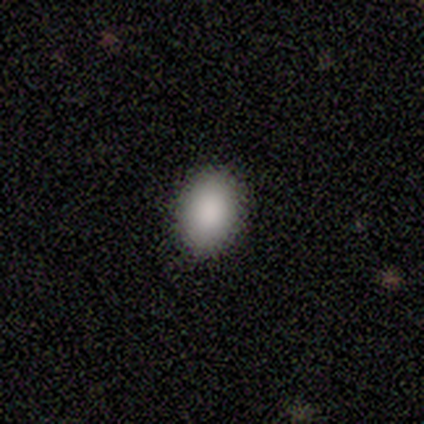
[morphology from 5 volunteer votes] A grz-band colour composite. It shows a smooth galaxy with no disk features (80%) that is in between round and cigar-shaped (75%). Merging: none (75%).